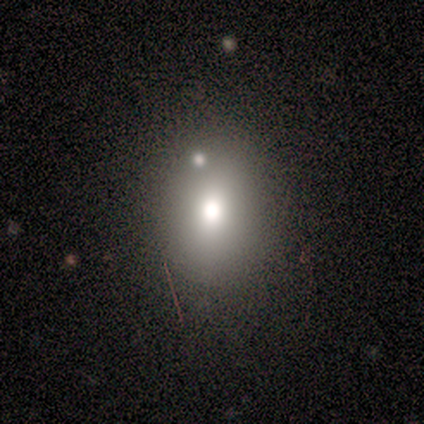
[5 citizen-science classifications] Smooth or featured?
  - smooth: 60% *
  - star or artifact: 40%
  - featured or disk: 0%
How rounded?
  - round: 100% *
  - in between: 0%
  - cigar-shaped: 0%
Merging?
  - none: 67% *
  - merger: 33%
  - minor disturbance: 0%
  - major disturbance: 0%